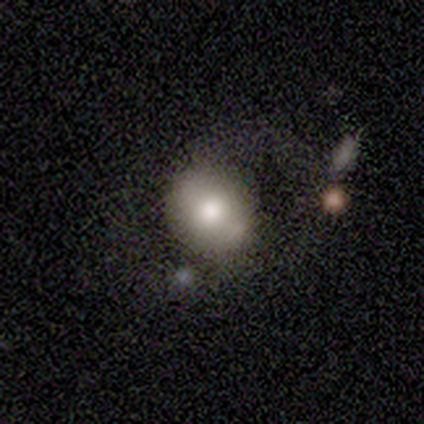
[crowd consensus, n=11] Smooth or featured? smooth (73%)
How rounded? round (88%)
Merging? none (64%)